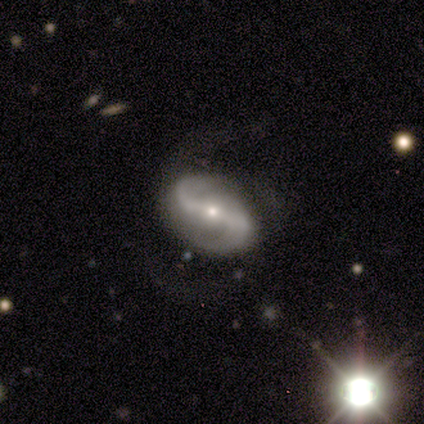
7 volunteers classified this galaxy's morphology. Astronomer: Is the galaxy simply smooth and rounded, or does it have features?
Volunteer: featured or disk — 86%.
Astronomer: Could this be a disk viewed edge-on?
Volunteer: no — 100%.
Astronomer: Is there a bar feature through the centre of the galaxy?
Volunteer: strong — 50%, tied with no at 50%.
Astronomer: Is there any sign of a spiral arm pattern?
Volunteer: yes — 100%.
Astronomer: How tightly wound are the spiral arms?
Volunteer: loose — 67%.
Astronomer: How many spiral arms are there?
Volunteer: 2 — 100%.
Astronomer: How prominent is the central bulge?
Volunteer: small — 100%.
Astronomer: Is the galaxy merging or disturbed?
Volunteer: major disturbance — 43% (runner-up: none, 29%).